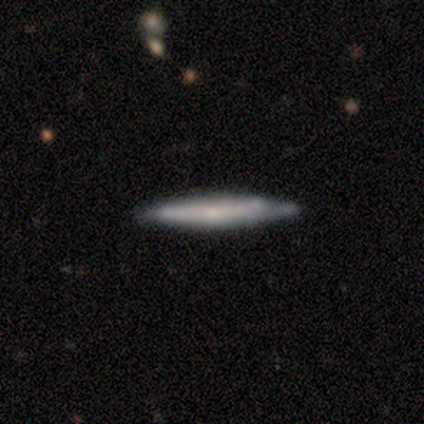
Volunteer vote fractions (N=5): Smooth or featured: featured or disk — 60% (smooth — 40%)
Edge-on disk: yes — 100%
Edge-on bulge: none — 100%
Merging: none — 100%